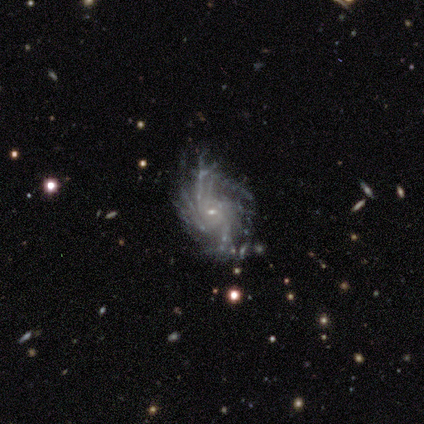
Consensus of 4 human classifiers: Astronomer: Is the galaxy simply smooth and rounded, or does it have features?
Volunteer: featured or disk — 100%.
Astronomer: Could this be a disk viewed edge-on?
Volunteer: no — 100%.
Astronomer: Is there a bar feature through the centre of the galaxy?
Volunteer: weak — 50%, tied with no at 50%.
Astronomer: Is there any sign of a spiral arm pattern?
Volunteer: yes — 100%.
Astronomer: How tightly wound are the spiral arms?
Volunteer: tight — 75%.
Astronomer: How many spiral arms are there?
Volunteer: more than 4 — 50%.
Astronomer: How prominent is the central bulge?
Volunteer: small — 100%.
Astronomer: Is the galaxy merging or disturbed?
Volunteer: none — 50%, tied with minor disturbance at 50%.